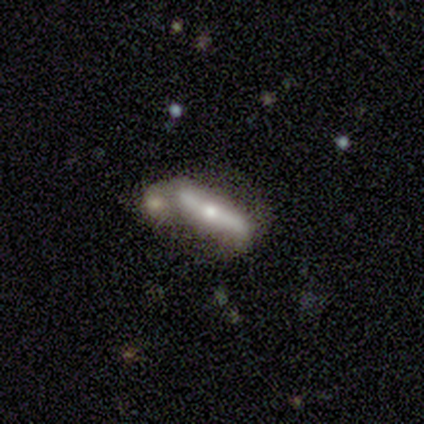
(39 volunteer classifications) A featured or disk galaxy (59%) viewed edge-on (65%) with a rounded central bulge (80%). Merging: merger (53%).